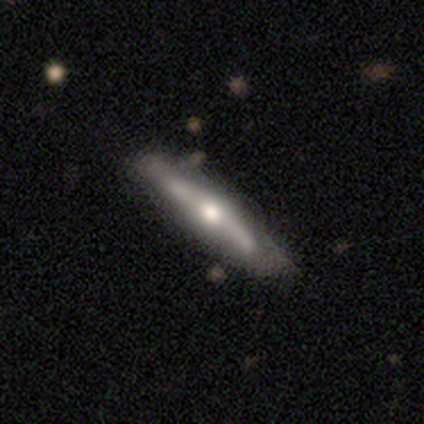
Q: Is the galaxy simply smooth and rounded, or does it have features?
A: featured or disk — 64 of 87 (74%).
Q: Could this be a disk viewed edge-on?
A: yes — 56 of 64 (88%).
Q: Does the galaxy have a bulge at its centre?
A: rounded — 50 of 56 (89%).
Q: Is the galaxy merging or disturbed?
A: none — 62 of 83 (75%).